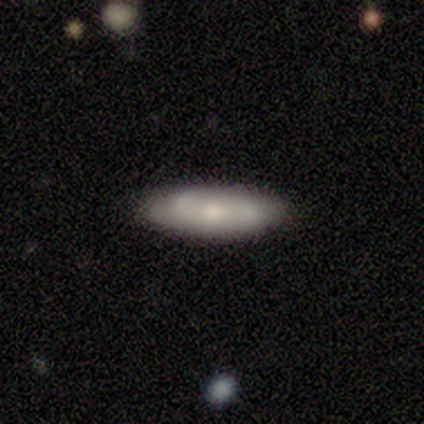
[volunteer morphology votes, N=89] Volunteers were most divided on "how rounded": cigar-shaped: 50%, in between: 48%, round: 2%. More confident: merging — none (85%); smooth or featured — smooth (58%).